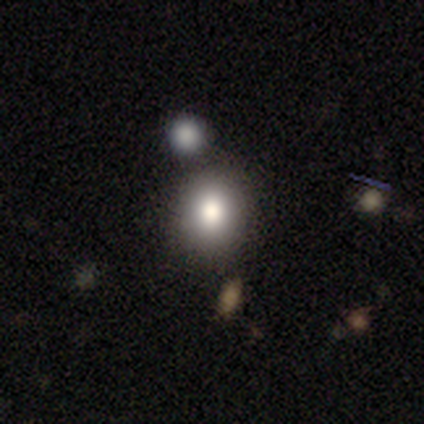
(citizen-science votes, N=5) Overall: smooth (100%). How rounded: in between (60%; round 40%). Merging: none (60%; minor disturbance 40%).